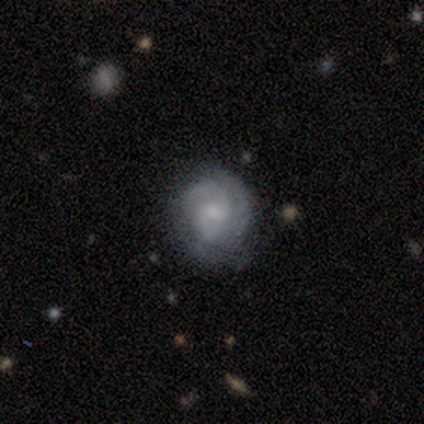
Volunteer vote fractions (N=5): smooth_or_featured: featured or disk (p=1.00)
disk_edge_on: no (p=1.00)
bar: no (p=0.60) [alt: weak p=0.40]
has_spiral_arms: yes (p=0.60) [alt: no p=0.40]
spiral_winding: loose (p=0.67) [alt: medium p=0.33]
spiral_arm_count: 2 (p=0.67) [alt: can't tell p=0.33]
bulge_size: small (p=0.60) [alt: large p=0.20]
merging: none (p=1.00)